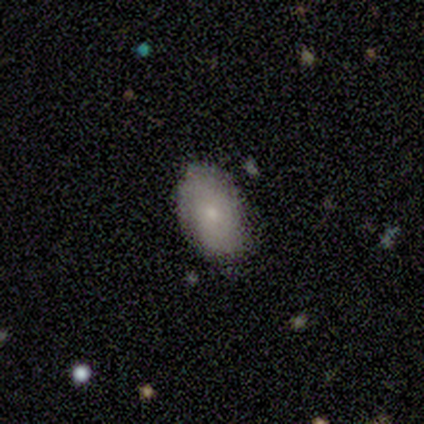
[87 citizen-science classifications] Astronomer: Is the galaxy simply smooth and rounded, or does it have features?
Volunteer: smooth — 70%.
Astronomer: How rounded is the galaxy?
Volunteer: in between — 90%.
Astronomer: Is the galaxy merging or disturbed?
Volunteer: none — 75%.